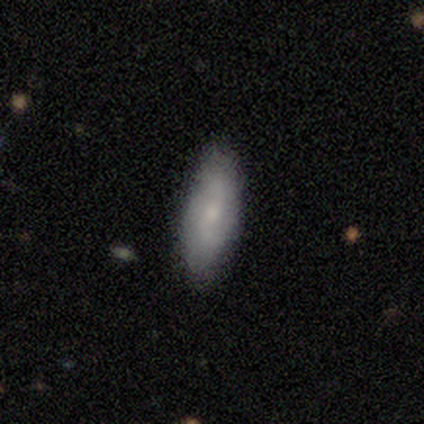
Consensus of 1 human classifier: Smooth or featured: smooth — 100%
How rounded: in between — 100%
Merging: none — 100%